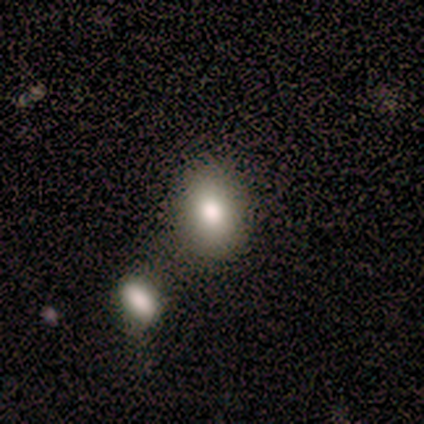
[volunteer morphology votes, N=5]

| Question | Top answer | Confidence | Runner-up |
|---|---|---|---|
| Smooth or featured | smooth | 40% | tied: star or artifact (40%) |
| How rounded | in between | 100% | — |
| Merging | none | 33% | tied: minor disturbance (33%), merger (33%) |